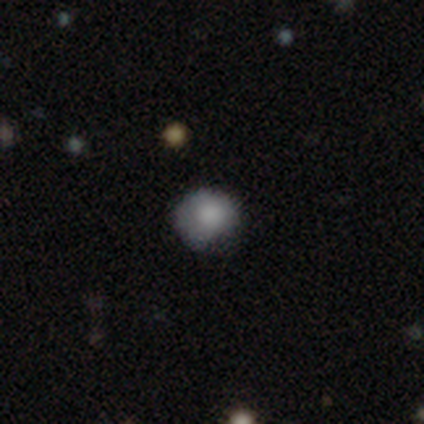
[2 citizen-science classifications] Overall: smooth (100%). How rounded: round (50%, tied with in between). Merging: none (50%, tied with minor disturbance).